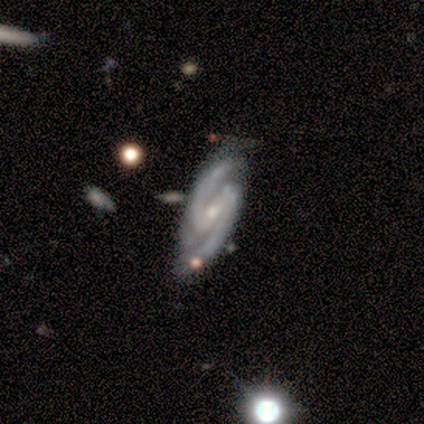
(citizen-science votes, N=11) Smooth or featured: featured or disk — 82% (smooth — 9%)
Edge-on disk: no — 100%
Bar: strong — 56% (weak — 33%)
Spiral arms: yes — 100%
Spiral winding: tight — 56% (medium — 33%)
Spiral arm count: 2 — 100%
Bulge size: moderate — 56% (small — 44%)
Merging: none — 60% (minor disturbance — 30%)